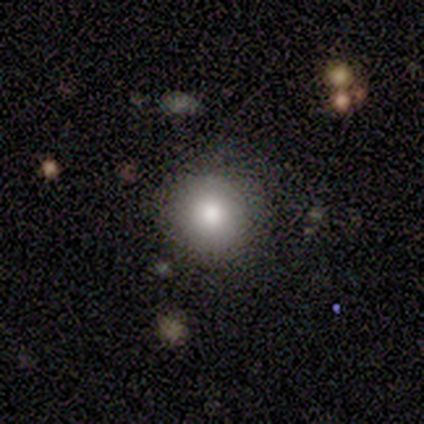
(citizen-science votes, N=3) Smooth or featured?
  - smooth: 100% *
  - featured or disk: 0%
  - star or artifact: 0%
How rounded?
  - round: 100% *
  - in between: 0%
  - cigar-shaped: 0%
Merging?
  - none: 100% *
  - minor disturbance: 0%
  - major disturbance: 0%
  - merger: 0%